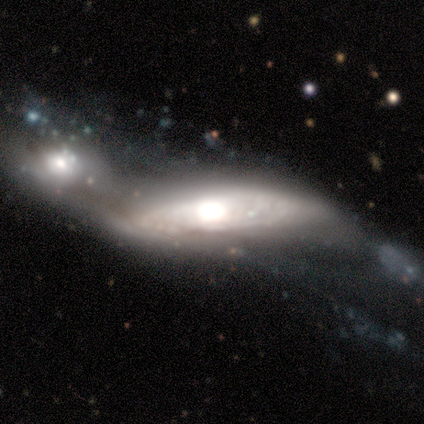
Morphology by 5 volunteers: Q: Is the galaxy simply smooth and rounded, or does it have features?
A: featured or disk — 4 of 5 (80%).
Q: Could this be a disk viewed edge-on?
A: no — 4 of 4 (100%).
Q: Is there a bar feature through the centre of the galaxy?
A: no — 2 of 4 (50%).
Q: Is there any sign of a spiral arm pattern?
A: no — 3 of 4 (75%).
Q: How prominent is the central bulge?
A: moderate — 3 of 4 (75%).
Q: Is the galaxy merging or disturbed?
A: major disturbance — 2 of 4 (50%).